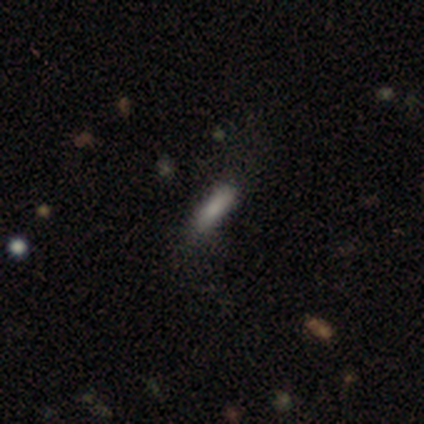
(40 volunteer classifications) A smooth galaxy with no disk features (88%) that is cigar-shaped (51%). Merging: none (71%).